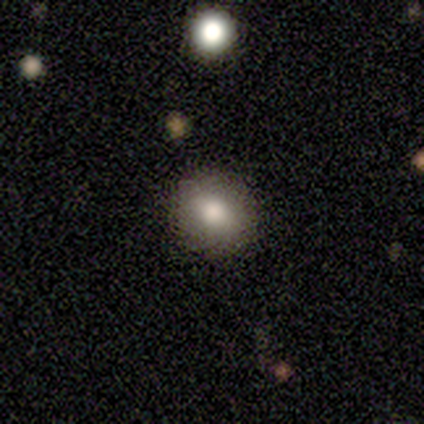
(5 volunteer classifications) Smooth or featured? 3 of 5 (60%) said smooth. How rounded? 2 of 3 (67%) said in between. Merging? 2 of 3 (67%) said none.